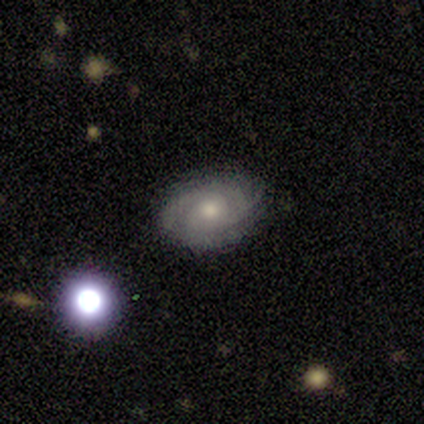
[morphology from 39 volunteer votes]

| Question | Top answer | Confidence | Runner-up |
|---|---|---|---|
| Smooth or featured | featured or disk | 85% | smooth (10%) |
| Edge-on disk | no | 97% | yes (3%) |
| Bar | no | 88% | weak (12%) |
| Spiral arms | yes | 94% | no (6%) |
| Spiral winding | tight | 50% | medium (37%) |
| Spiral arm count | can't tell | 43% | 2 (27%) |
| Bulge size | moderate | 53% | small (44%) |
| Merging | none | 86% | minor disturbance (8%) |